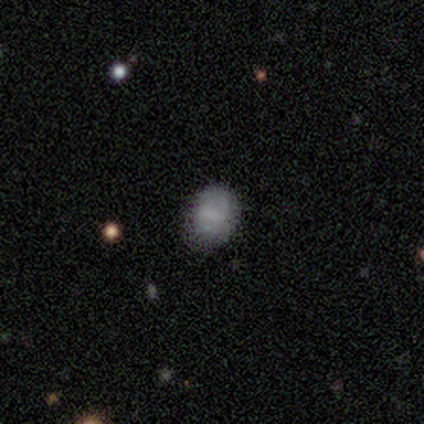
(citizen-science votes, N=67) A smooth galaxy with no disk features (67%) that is in between round and cigar-shaped (64%).

Vote fractions:
- Smooth or featured? smooth: 67% / featured or disk: 25% / star or artifact: 7%
- How rounded? in between: 64% / round: 33% / cigar-shaped: 2%
- Merging? none: 74% / minor disturbance: 18% / major disturbance: 5% / merger: 3%